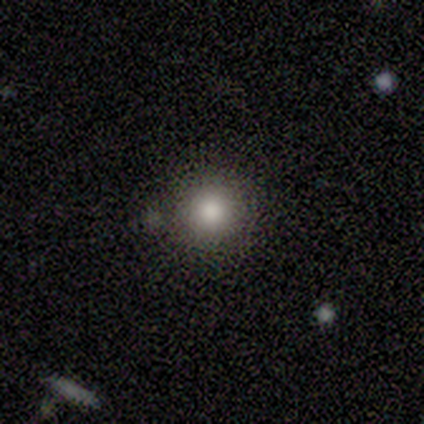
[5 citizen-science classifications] Smooth or featured? smooth (80%)
How rounded? round (100%)
Merging? none (75%)